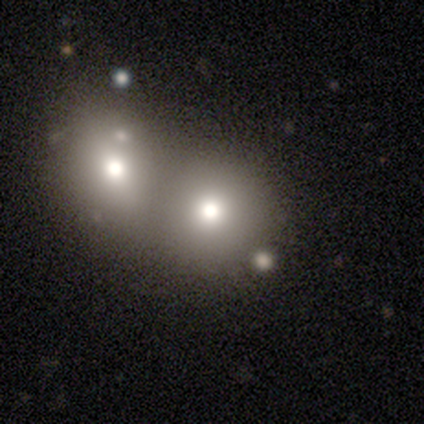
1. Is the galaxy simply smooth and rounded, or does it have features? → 67% smooth, 33% featured or disk, 0% star or artifact.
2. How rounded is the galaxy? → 50% round (tied), 50% in between (tied), 0% cigar-shaped.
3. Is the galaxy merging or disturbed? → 67% none, 33% merger, 0% minor disturbance, 0% major disturbance.